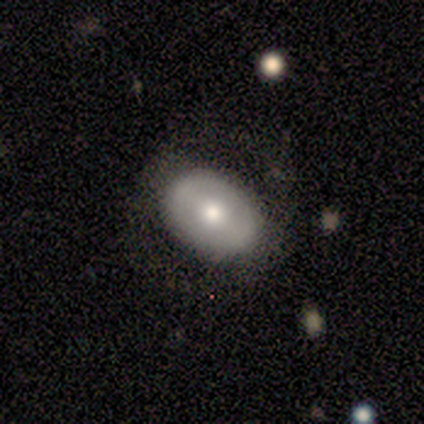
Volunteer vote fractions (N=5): Smooth or featured?
  - featured or disk: 60% *
  - smooth: 20%
  - star or artifact: 20%
Edge-on disk?
  - no: 100% *
  - yes: 0%
Bar?
  - strong: 33% * (tied)
  - weak: 33% * (tied)
  - no: 33% * (tied)
Spiral arms?
  - no: 67% *
  - yes: 33%
Bulge size?
  - dominant: 67% *
  - moderate: 33%
  - large: 0%
  - small: 0%
  - none: 0%
Merging?
  - none: 75% *
  - minor disturbance: 25%
  - major disturbance: 0%
  - merger: 0%